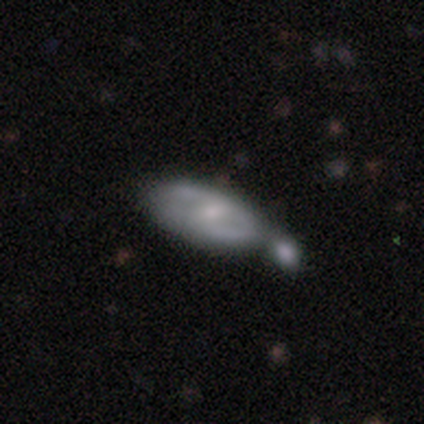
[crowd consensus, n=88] This appears to be a featured or disk galaxy (64%) with a weak bar (53%), 2 (72%) medium (59%) spiral arms (62%) and a small central bulge (55%). Merging: merger (39%).